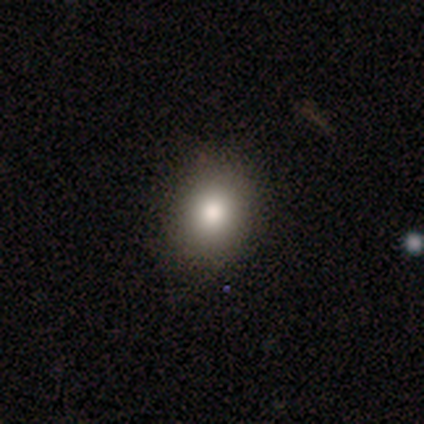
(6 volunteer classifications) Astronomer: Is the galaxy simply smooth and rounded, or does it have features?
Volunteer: smooth — 100%.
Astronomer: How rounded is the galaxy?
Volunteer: in between — 83%.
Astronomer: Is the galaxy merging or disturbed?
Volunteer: none — 83%.